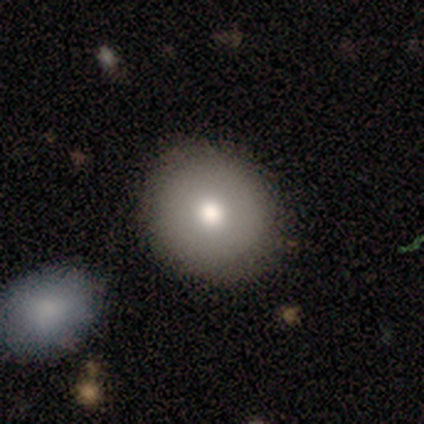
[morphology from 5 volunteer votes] smooth-or-featured: smooth: 80% | featured or disk: 20% | star or artifact: 0%
  how-rounded: round: 100% | in between: 0% | cigar-shaped: 0%
  merging: none: 80% | minor disturbance: 20% | major disturbance: 0% | merger: 0%